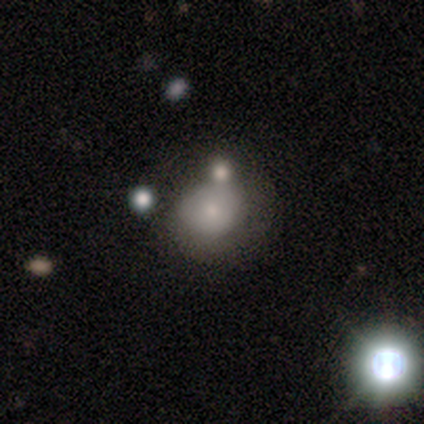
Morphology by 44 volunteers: This is likely a smooth galaxy (64%). How rounded: likely round (68%). Merging: likely none (60%).